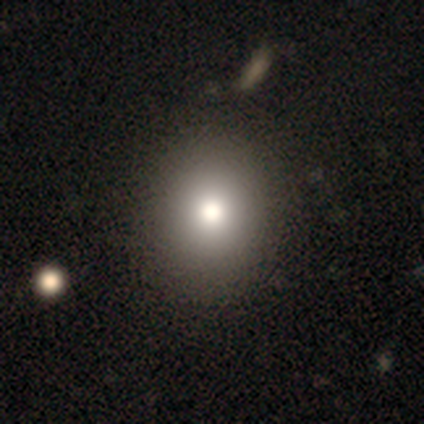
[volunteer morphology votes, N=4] Smooth or featured?
  - smooth: 50% *
  - featured or disk: 25%
  - star or artifact: 25%
How rounded?
  - round: 100% *
  - in between: 0%
  - cigar-shaped: 0%
Merging?
  - none: 100% *
  - minor disturbance: 0%
  - major disturbance: 0%
  - merger: 0%